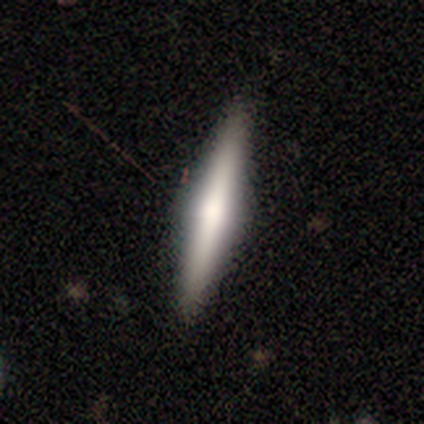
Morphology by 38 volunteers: Smooth or featured? 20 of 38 (53%) said featured or disk. Edge-on disk? 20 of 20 (100%) said yes. Edge-on bulge? 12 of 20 (60%) said rounded. Merging? 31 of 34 (91%) said none.